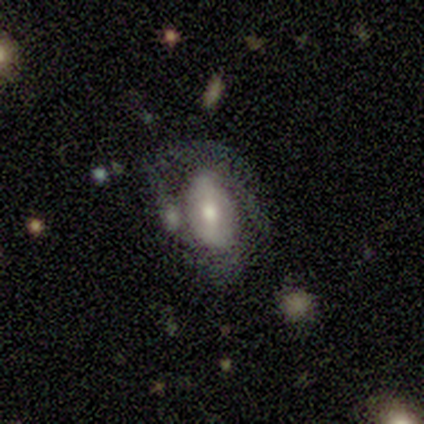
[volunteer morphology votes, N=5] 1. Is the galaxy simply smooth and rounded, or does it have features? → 80% smooth, 20% featured or disk, 0% star or artifact.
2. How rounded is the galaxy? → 100% in between, 0% round, 0% cigar-shaped.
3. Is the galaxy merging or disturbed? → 40% none (tied), 40% major disturbance (tied), 20% minor disturbance, 0% merger.